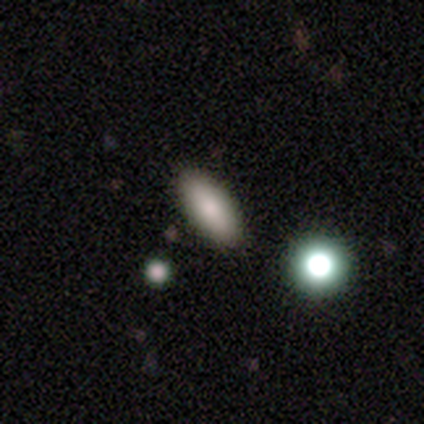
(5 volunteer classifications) Smooth or featured? smooth (100%)
How rounded? in between (80%)
Merging? none (100%)